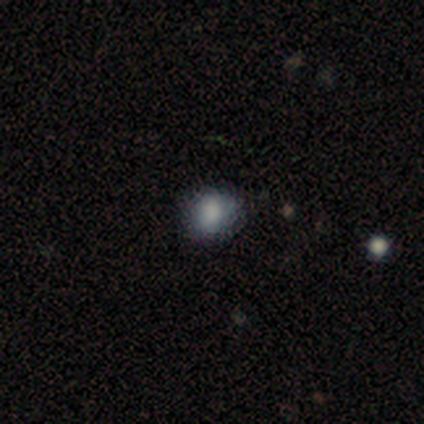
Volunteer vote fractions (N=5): Smooth or featured?
  - smooth: 80% *
  - star or artifact: 20%
  - featured or disk: 0%
How rounded?
  - round: 75% *
  - in between: 25%
  - cigar-shaped: 0%
Merging?
  - none: 75% *
  - minor disturbance: 25%
  - major disturbance: 0%
  - merger: 0%